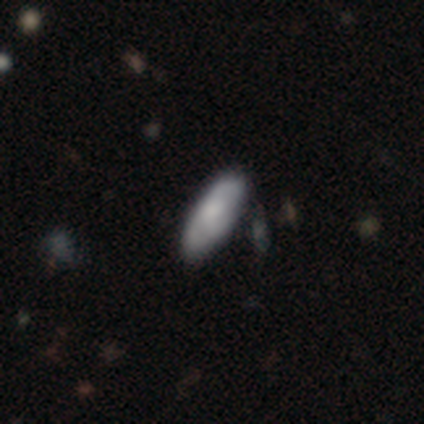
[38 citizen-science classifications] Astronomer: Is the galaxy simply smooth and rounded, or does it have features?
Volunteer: smooth — 68%.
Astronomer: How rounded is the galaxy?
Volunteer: in between — 77%.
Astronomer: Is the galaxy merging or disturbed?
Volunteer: none — 74%.